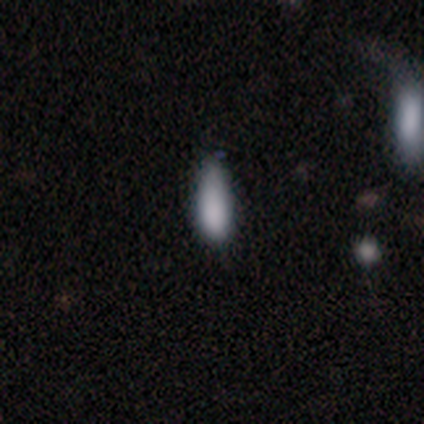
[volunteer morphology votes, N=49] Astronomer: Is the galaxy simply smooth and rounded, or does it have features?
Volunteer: smooth — 84%.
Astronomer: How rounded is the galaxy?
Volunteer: in between — 63%.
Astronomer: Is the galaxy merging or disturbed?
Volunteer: none — 47% (runner-up: minor disturbance, 42%).